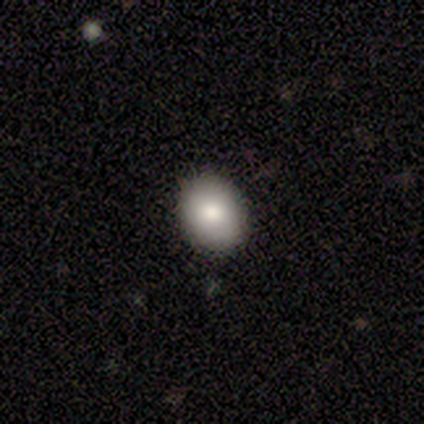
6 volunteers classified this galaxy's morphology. A smooth galaxy with no disk features (83%) that is in between round and cigar-shaped (80%).

Vote fractions:
- Smooth or featured? smooth: 83% / featured or disk: 17% / star or artifact: 0%
- How rounded? in between: 80% / round: 20% / cigar-shaped: 0%
- Merging? none: 67% / minor disturbance: 17% / major disturbance: 17% / merger: 0%